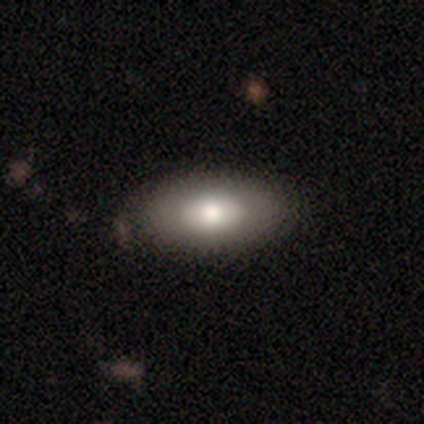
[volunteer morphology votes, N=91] smooth-or-featured: smooth: 74% | featured or disk: 21% | star or artifact: 5%
  how-rounded: in between: 96% | cigar-shaped: 3% | round: 1%
  merging: none: 78% | minor disturbance: 17% | major disturbance: 3% | merger: 1%